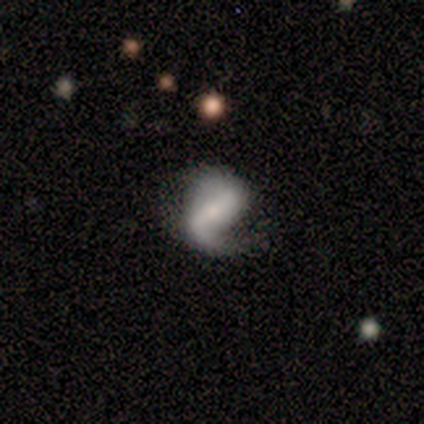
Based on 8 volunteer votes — Smooth or featured? featured or disk (88%)
Edge-on disk? no (100%)
Bar? strong (43%, tied with weak)
Spiral arms? yes (100%)
Spiral winding? medium (43%, tied with loose)
Spiral arm count? 2 (100%)
Bulge size? small (57%)
Merging? minor disturbance (62%)